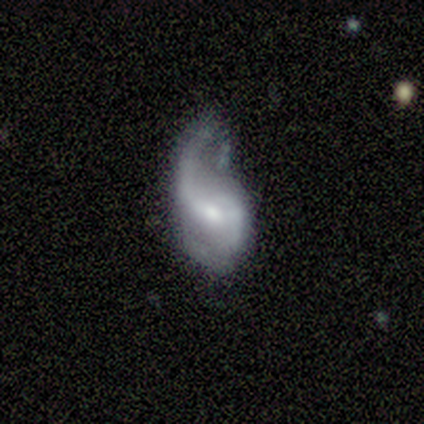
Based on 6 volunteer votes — Overall: featured or disk (67%). Edge-on disk: no (100%). Bar: weak (50%; strong 25%). Spiral arms: yes (100%). Spiral arm count: 2 (75%). Spiral winding: medium (50%, tied with loose). Bulge size: moderate (75%). Merging: minor disturbance (40%; none 20%).